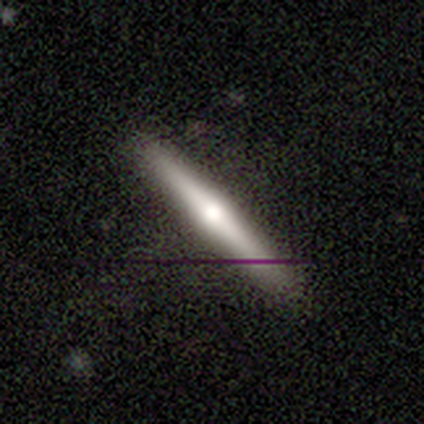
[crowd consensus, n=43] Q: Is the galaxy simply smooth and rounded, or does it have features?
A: featured or disk — 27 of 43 (63%).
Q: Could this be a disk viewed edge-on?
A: yes — 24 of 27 (89%).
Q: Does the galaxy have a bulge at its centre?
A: rounded — 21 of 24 (88%).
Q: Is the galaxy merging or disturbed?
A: none — 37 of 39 (95%).